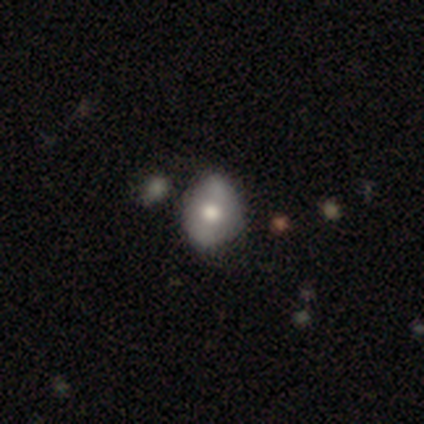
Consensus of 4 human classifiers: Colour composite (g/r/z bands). It shows a featured or disk galaxy (75%) with a weak bar (50%, tied with no), loose (100%) spiral arms (50%, tied with no) and a moderate central bulge (100%). Merging: none (50%).